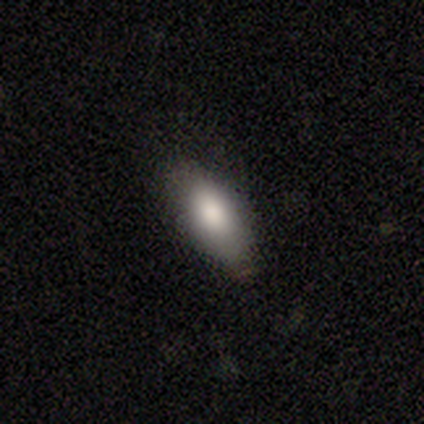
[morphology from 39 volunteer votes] smooth 92%, featured or disk 5%, star or artifact 3%. Down the decision tree: how rounded — in between (83%); merging — none (74%).